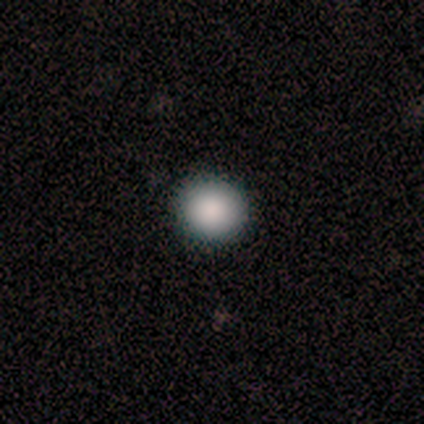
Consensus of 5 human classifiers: Smooth or featured: smooth — 100%
How rounded: round — 100%
Merging: none — 100%